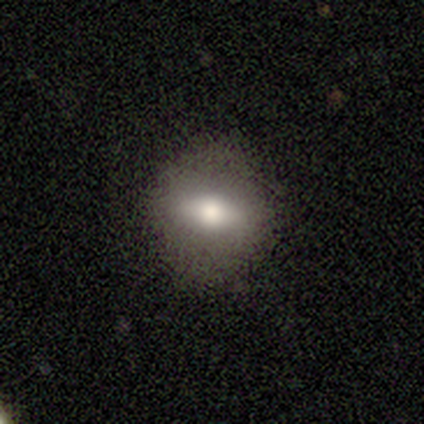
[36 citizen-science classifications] Smooth or featured? 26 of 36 (72%) said smooth. How rounded? 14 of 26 (54%) said in between. Merging? 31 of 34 (91%) said none.